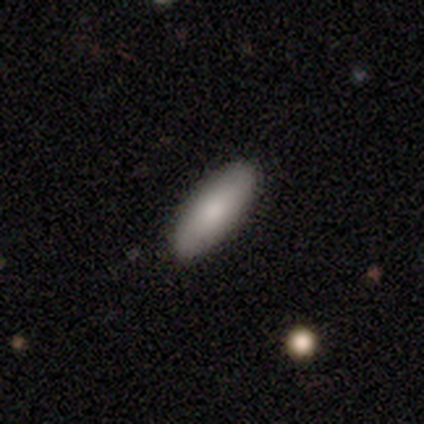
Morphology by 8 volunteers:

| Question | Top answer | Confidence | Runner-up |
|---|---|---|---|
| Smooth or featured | smooth | 88% | star or artifact (12%) |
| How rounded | in between | 86% | cigar-shaped (14%) |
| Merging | none | 100% | — |